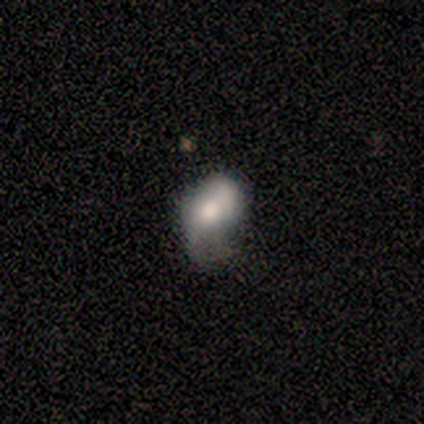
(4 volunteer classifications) Volunteers were most divided on "smooth or featured" (2-way tie): smooth: 50%, featured or disk: 50%, star or artifact: 0%; "how rounded" (2-way tie): round: 50%, in between: 50%, cigar-shaped: 0%. More confident: merging — major disturbance (50%).